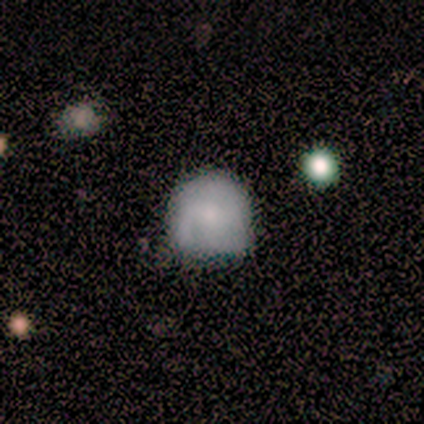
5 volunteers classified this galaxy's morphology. Smooth or featured? 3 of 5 (60%) said smooth. How rounded? 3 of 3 (100%) said round. Merging? 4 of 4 (100%) said none.